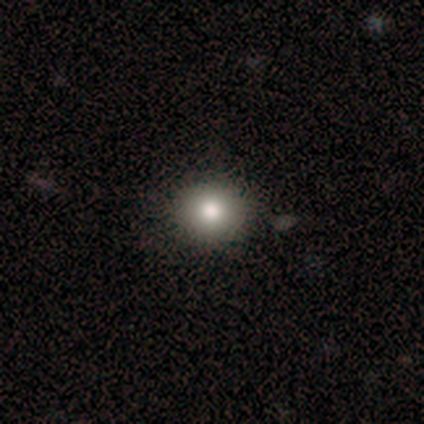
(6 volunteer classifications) Smooth or featured?
  - smooth: 100% *
  - featured or disk: 0%
  - star or artifact: 0%
How rounded?
  - round: 67% *
  - in between: 33%
  - cigar-shaped: 0%
Merging?
  - none: 100% *
  - minor disturbance: 0%
  - major disturbance: 0%
  - merger: 0%